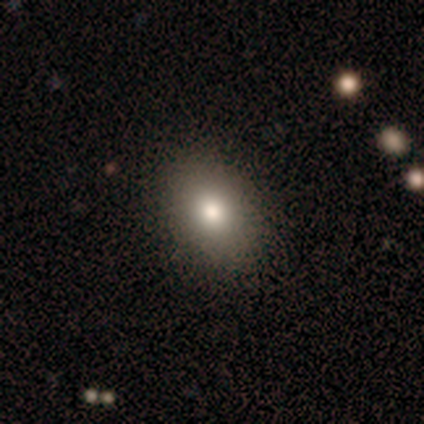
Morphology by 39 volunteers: Smooth or featured? 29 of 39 (74%) said smooth. How rounded? 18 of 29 (62%) said in between. Merging? 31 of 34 (91%) said none.